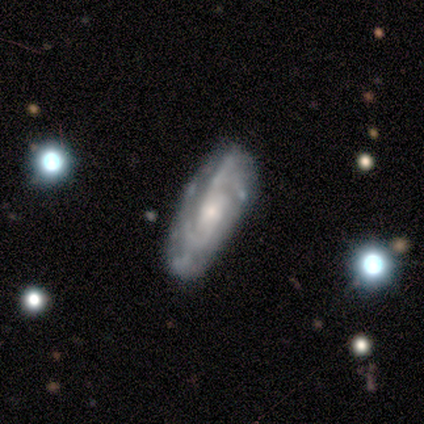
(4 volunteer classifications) smooth_or_featured: featured or disk (p=1.00)
disk_edge_on: no (p=1.00)
bar: weak (p=0.50) [alt: strong p=0.25]
has_spiral_arms: yes (p=1.00)
spiral_winding: medium (p=0.50) [alt: tight p=0.25]
spiral_arm_count: 2 (p=0.25) [tied with: 3 p=0.25, 4 p=0.25, can't tell p=0.25]
bulge_size: moderate (p=0.75) [alt: large p=0.25]
merging: none (p=0.75) [alt: minor disturbance p=0.25]